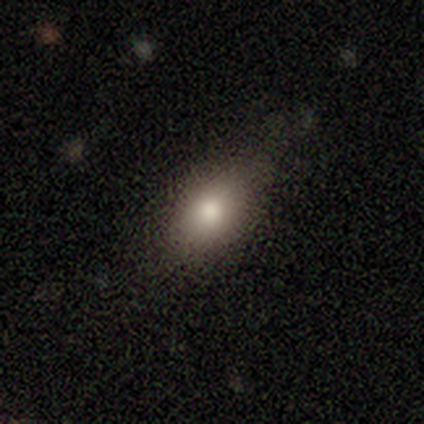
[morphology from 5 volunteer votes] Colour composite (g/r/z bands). It shows a smooth galaxy with no disk features (60%) that is in between round and cigar-shaped (100%). Merging: none (67%).